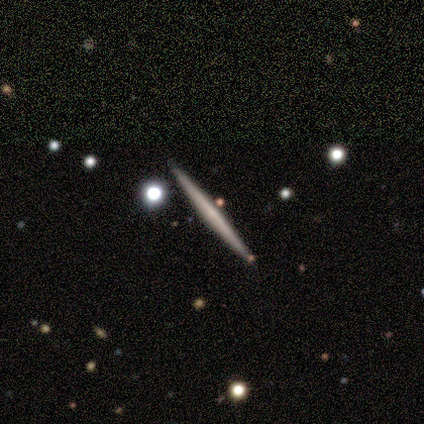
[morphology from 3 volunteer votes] Q: Smooth or featured?
A: smooth (67%); runner-up: featured or disk (33%)
Q: How rounded?
A: cigar-shaped (100%)
Q: Merging?
A: none (67%); runner-up: minor disturbance (33%)